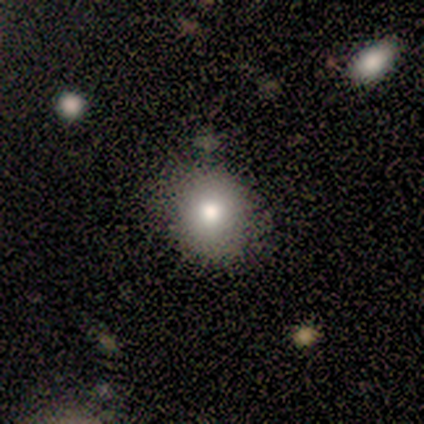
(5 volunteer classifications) smooth-or-featured: smooth: 100% | featured or disk: 0% | star or artifact: 0%
  how-rounded: round: 100% | in between: 0% | cigar-shaped: 0%
  merging: none: 80% | major disturbance: 20% | minor disturbance: 0% | merger: 0%